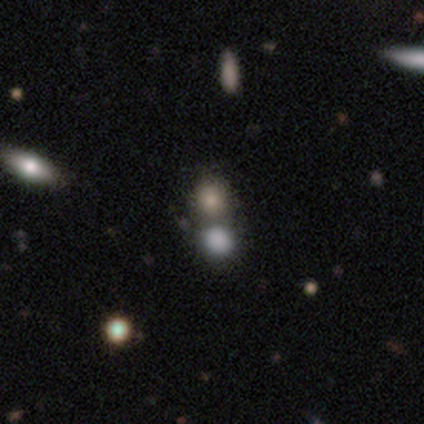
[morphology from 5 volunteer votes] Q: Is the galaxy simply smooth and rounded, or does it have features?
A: star or artifact — 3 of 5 (60%).